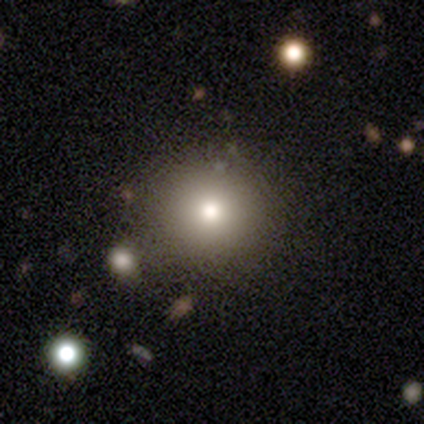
Morphology: type=smooth (60%); roundness=round (100%); merging=none (100%).